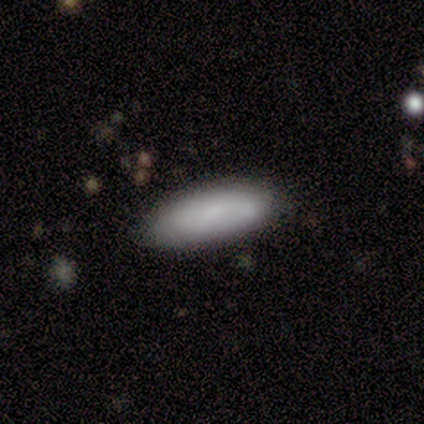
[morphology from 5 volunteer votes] Smooth or featured?
  - smooth: 60% *
  - featured or disk: 40%
  - star or artifact: 0%
How rounded?
  - cigar-shaped: 67% *
  - in between: 33%
  - round: 0%
Merging?
  - none: 80% *
  - minor disturbance: 20%
  - major disturbance: 0%
  - merger: 0%